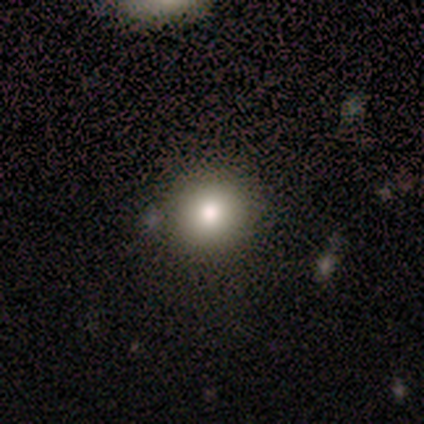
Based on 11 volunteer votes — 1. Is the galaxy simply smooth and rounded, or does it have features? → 64% smooth, 27% star or artifact, 9% featured or disk.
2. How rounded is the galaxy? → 100% round, 0% in between, 0% cigar-shaped.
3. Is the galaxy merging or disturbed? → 75% none, 25% minor disturbance, 0% major disturbance, 0% merger.